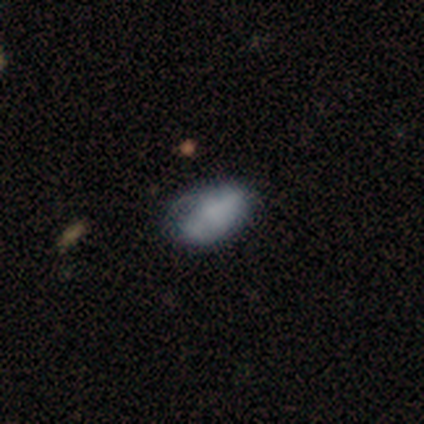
Smooth or featured? 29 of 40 (72%) said smooth. How rounded? 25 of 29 (86%) said in between. Merging? 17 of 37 (46%) said none.